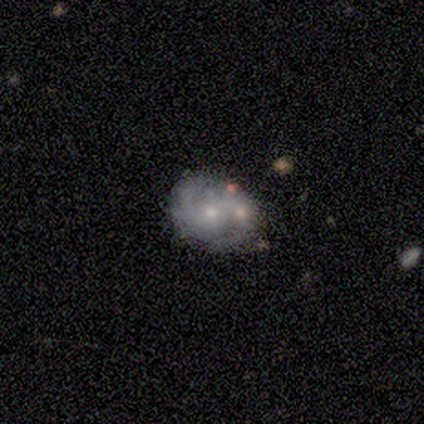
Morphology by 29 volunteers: A featured or disk galaxy (66%) with no bar (68%), 2 (57%) tight (50%) spiral arms (74%) and a small central bulge (53%). Merging: merger (50%).